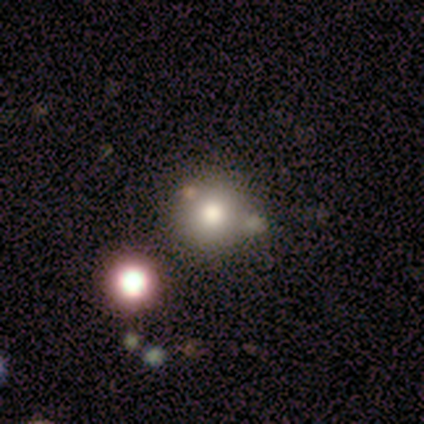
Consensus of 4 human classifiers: Smooth or featured?
  - smooth: 50% * (tied)
  - featured or disk: 50% * (tied)
  - star or artifact: 0%
How rounded?
  - round: 100% *
  - in between: 0%
  - cigar-shaped: 0%
Merging?
  - none: 75% *
  - merger: 25%
  - minor disturbance: 0%
  - major disturbance: 0%